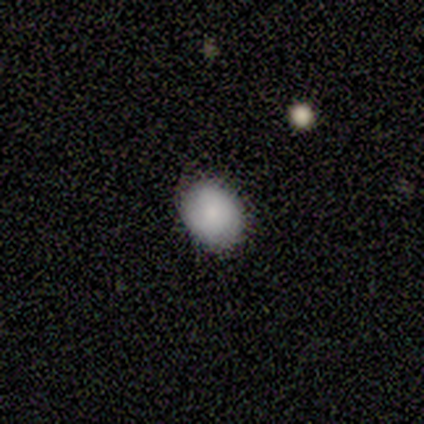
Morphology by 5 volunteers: Smooth or featured? 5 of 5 (100%) said smooth. How rounded? 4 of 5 (80%) said in between. Merging? 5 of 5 (100%) said none.